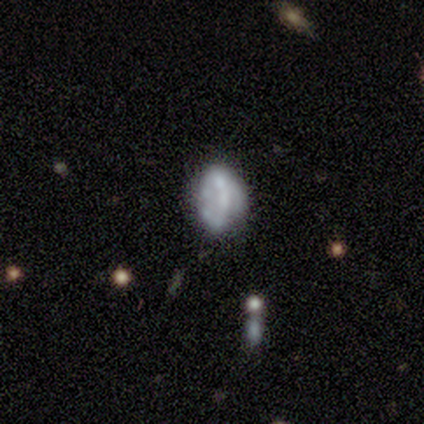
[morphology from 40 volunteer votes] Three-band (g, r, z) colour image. It shows a featured or disk galaxy (60%) with no bar (88%), no spiral arms (83%) and no central bulge (75%). Merging: none (46%).